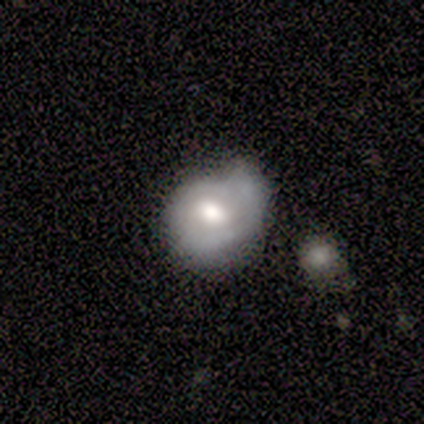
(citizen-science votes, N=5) smooth-or-featured: smooth: 60% | featured or disk: 40% | star or artifact: 0%
  how-rounded: round: 67% | in between: 33% | cigar-shaped: 0%
  merging: none: 80% | minor disturbance: 20% | major disturbance: 0% | merger: 0%